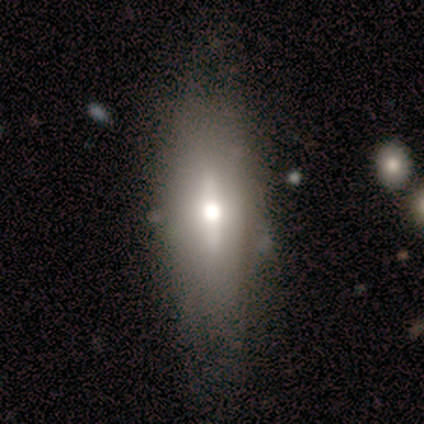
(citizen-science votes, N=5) Volunteers were most divided on "merging" (2-way tie): none: 40%, minor disturbance: 40%, major disturbance: 20%, merger: 0%. More confident: smooth or featured — featured or disk (100%); edge-on bulge — rounded (100%); edge-on disk — yes (60%).